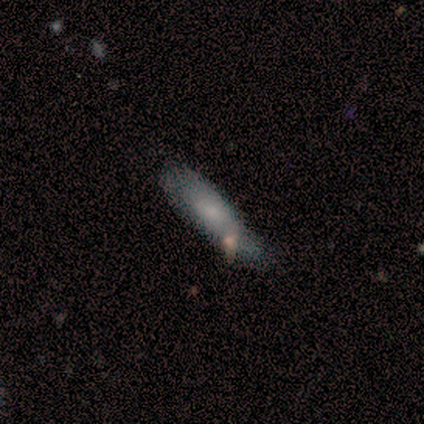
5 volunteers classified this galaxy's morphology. smooth-or-featured: smooth: 80% | featured or disk: 20% | star or artifact: 0%
  how-rounded: cigar-shaped: 100% | round: 0% | in between: 0%
  merging: minor disturbance: 40% | none: 20% | major disturbance: 20% | merger: 20%